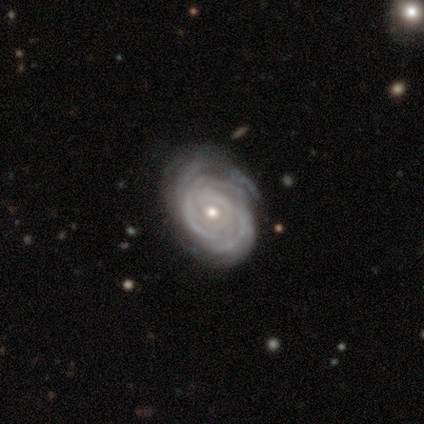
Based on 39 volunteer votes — Smooth or featured? 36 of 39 (92%) said featured or disk. Edge-on disk? 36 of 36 (100%) said no. Bar? 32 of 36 (89%) said no. Spiral arms? 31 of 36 (86%) said yes. Spiral winding? 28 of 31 (90%) said tight. Spiral arm count? 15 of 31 (48%) said can't tell. Bulge size? 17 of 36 (47%, tied with small) said moderate. Merging? 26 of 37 (70%) said none.